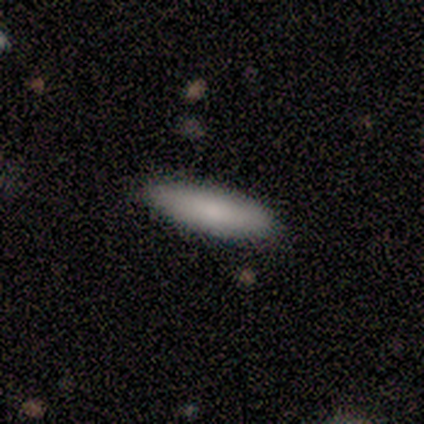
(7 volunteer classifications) Q: Smooth or featured?
A: smooth (86%); runner-up: featured or disk (14%)
Q: How rounded?
A: in between (50%); tied with: cigar-shaped (50%)
Q: Merging?
A: none (100%)